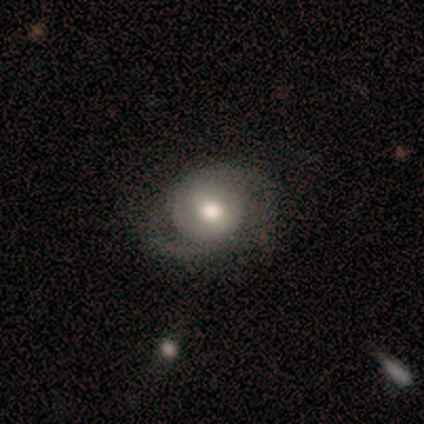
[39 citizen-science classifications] This is likely a featured or disk galaxy (72%). It is clearly not viewed edge-on (100%). Bar: possibly weak (46%, tied with no). Spiral arm pattern: clearly yes (82%). Spiral arm count: likely 2 (65%). Spiral winding: marginally medium (43%). Central bulge: likely moderate (71%). Merging: likely none (73%).